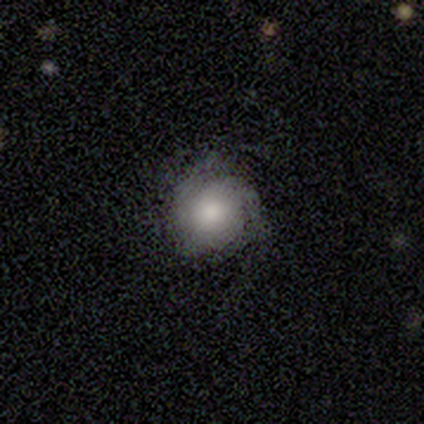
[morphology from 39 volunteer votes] Smooth or featured?
  - smooth: 56% *
  - featured or disk: 44%
  - star or artifact: 0%
How rounded?
  - round: 77% *
  - in between: 23%
  - cigar-shaped: 0%
Merging?
  - none: 69% *
  - minor disturbance: 26%
  - major disturbance: 3%
  - merger: 3%